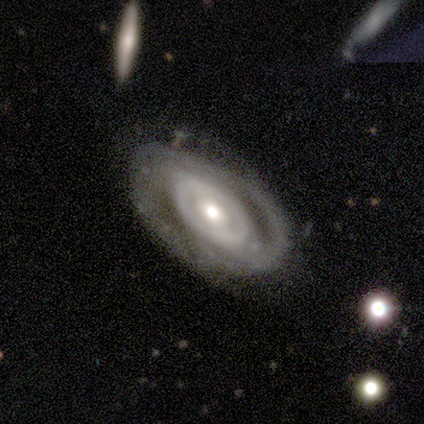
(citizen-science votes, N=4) Smooth or featured: featured or disk — 100%
Edge-on disk: no — 100%
Bar: weak — 75% (no — 25%)
Spiral arms: yes — 100%
Spiral winding: tight — 75% (medium — 25%)
Spiral arm count: 2 — 50% (1 — 25%)
Bulge size: small — 50% (large — 25%)
Merging: none — 100%